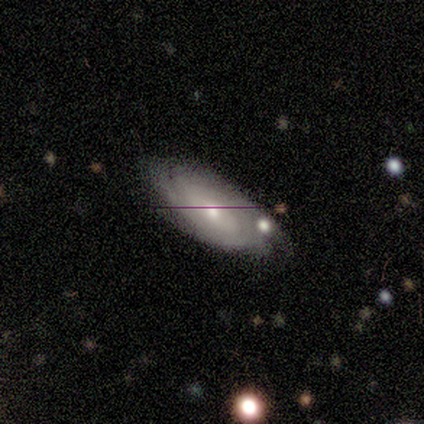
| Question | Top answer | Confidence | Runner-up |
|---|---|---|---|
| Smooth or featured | featured or disk | 40% | tied: star or artifact (40%) |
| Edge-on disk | no | 100% | — |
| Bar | weak | 50% | tied: no (50%) |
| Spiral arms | yes | 100% | — |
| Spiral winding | tight | 50% | tied: loose (50%) |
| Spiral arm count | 2 | 50% | tied: can't tell (50%) |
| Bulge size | moderate | 100% | — |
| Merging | none | 67% | minor disturbance (33%) |